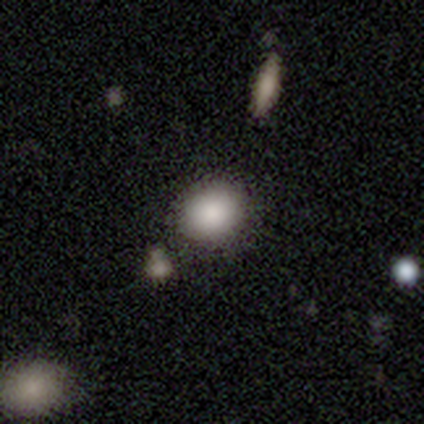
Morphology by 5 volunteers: Smooth or featured: smooth — 80% (featured or disk — 20%)
How rounded: round — 75% (in between — 25%)
Merging: none — 80% (merger — 20%)